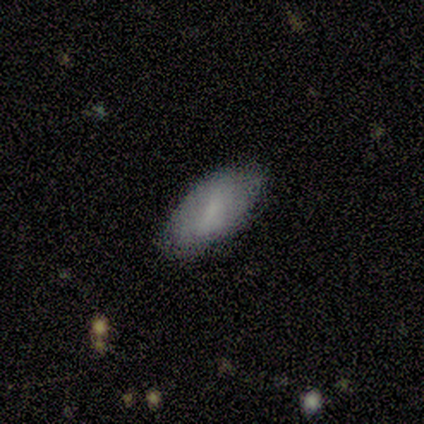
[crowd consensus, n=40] Smooth or featured: smooth — 80% (featured or disk — 10%)
How rounded: in between — 81% (cigar-shaped — 12%)
Merging: none — 81% (minor disturbance — 17%)